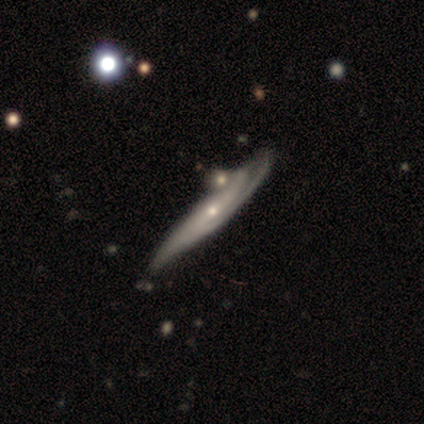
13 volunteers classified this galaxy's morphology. Smooth or featured?
  - featured or disk: 69% *
  - smooth: 23%
  - star or artifact: 8%
Edge-on disk?
  - no: 78% *
  - yes: 22%
Bar?
  - no: 57% *
  - weak: 43%
  - strong: 0%
Spiral arms?
  - yes: 86% *
  - no: 14%
Spiral winding?
  - tight: 50% *
  - medium: 33%
  - loose: 17%
Spiral arm count?
  - 3: 50% *
  - 2: 33%
  - can't tell: 17%
  - 1: 0%
  - 4: 0%
  - more than 4: 0%
Bulge size?
  - small: 86% *
  - moderate: 14%
  - dominant: 0%
  - large: 0%
  - none: 0%
Merging?
  - none: 50% *
  - minor disturbance: 17%
  - major disturbance: 17%
  - merger: 17%